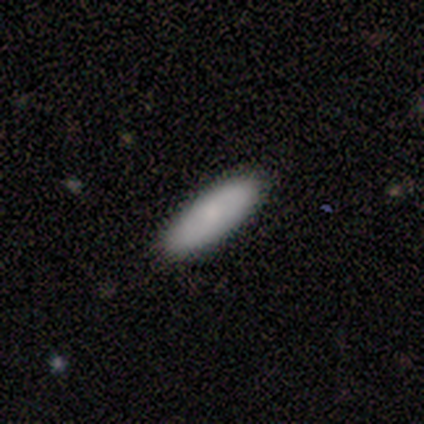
This is clearly a smooth galaxy (80%). How rounded: possibly in between (53%). Merging: clearly none (87%).